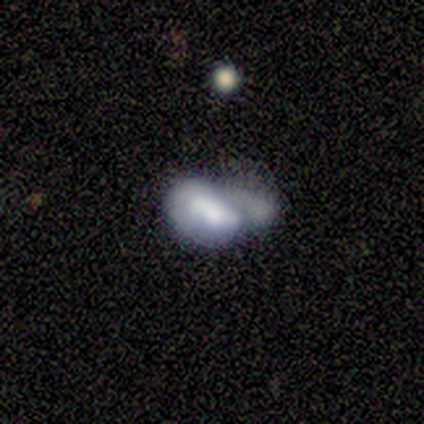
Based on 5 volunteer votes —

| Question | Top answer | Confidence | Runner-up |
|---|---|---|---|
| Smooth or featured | smooth | 40% | tied: featured or disk (40%) |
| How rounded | in between | 100% | — |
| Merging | minor disturbance | 50% | major disturbance (25%) |